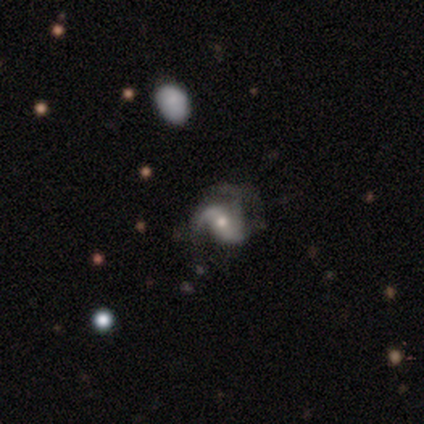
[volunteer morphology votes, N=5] Smooth or featured? 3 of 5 (60%) said featured or disk. Edge-on disk? 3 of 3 (100%) said no. Bar? 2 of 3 (67%) said strong. Spiral arms? 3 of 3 (100%) said yes. Spiral winding? 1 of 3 (33%, tied with medium and loose) said tight. Spiral arm count? 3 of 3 (100%) said 2. Bulge size? 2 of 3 (67%) said moderate. Merging? 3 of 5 (60%) said none.